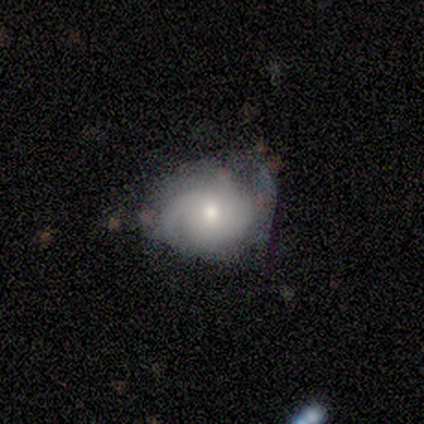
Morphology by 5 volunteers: This is likely a featured or disk galaxy (60%). It is clearly not viewed edge-on (100%). Bar: likely no (67%). Spiral arm pattern: clearly yes (100%). Spiral arm count: likely 2 (67%). Spiral winding: likely tight (67%). Central bulge: likely moderate (67%). Merging: possibly none (50%, tied with minor disturbance).